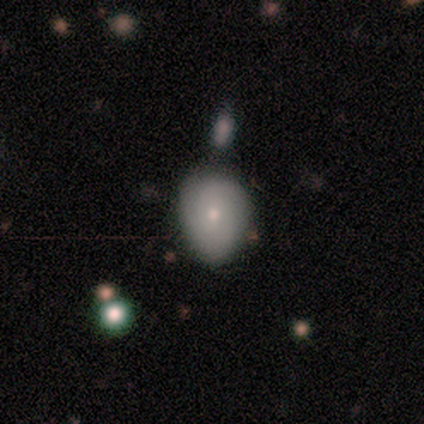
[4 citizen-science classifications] This appears to be a star or artifact, not a galaxy (50%).